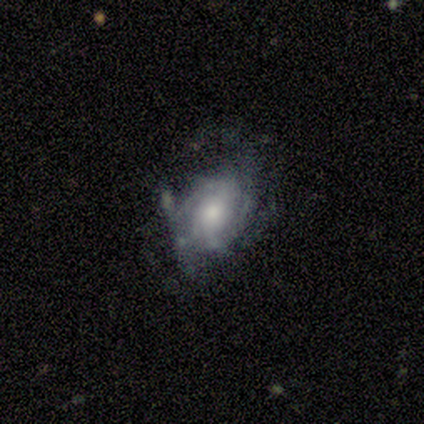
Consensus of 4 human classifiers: A featured or disk galaxy (75%) with no bar (67%), 3 (100%) medium (100%) spiral arms (67%) and a moderate central bulge (100%).

Vote fractions:
- Smooth or featured? featured or disk: 75% / smooth: 25% / star or artifact: 0%
- Edge-on disk? no: 100% / yes: 0%
- Bar? no: 67% / weak: 33% / strong: 0%
- Spiral arms? yes: 67% / no: 33%
- Spiral winding? medium: 100% / tight: 0% / loose: 0%
- Spiral arm count? 3: 100% / 1: 0% / 2: 0% / 4: 0% / more than 4: 0% / can't tell: 0%
- Bulge size? moderate: 100% / dominant: 0% / large: 0% / small: 0% / none: 0%
- Merging? minor disturbance: 75% / none: 25% / major disturbance: 0% / merger: 0%